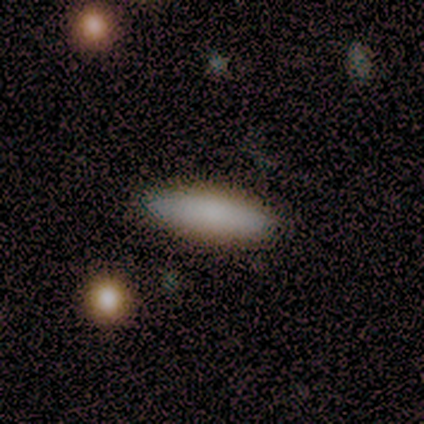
A smooth galaxy with no disk features (90%) that is cigar-shaped (67%). Merging: none (85%).